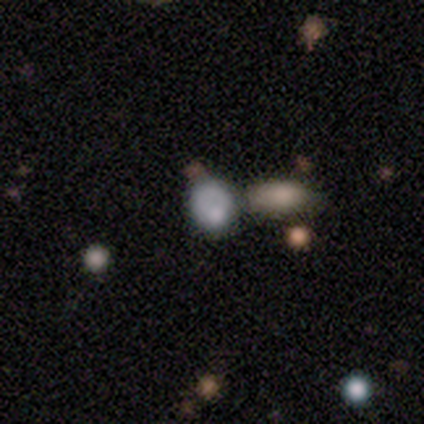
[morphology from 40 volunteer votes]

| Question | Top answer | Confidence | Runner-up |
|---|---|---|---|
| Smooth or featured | smooth | 70% | featured or disk (18%) |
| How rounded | round | 57% | in between (43%) |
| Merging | merger | 40% | none (31%) |